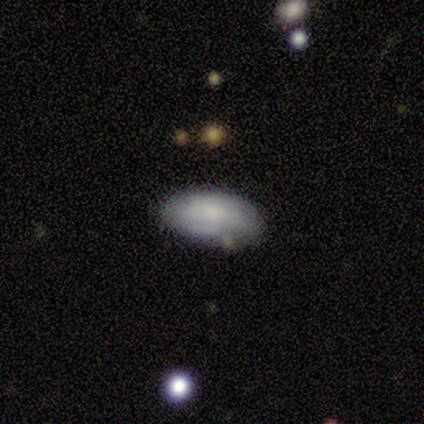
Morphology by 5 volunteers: Q: Smooth or featured?
A: smooth (60%); runner-up: featured or disk (20%)
Q: How rounded?
A: in between (100%)
Q: Merging?
A: none (50%); tied with: minor disturbance (50%)